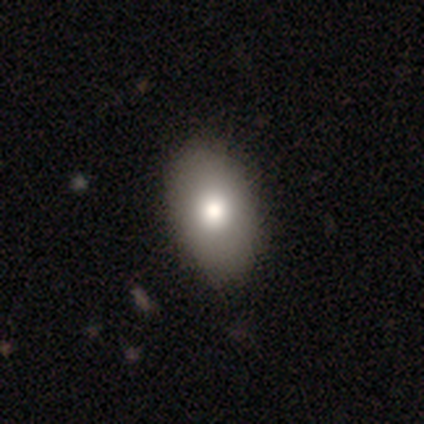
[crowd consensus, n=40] Morphology: type=smooth (95%); roundness=in between (87%); merging=none (48%).